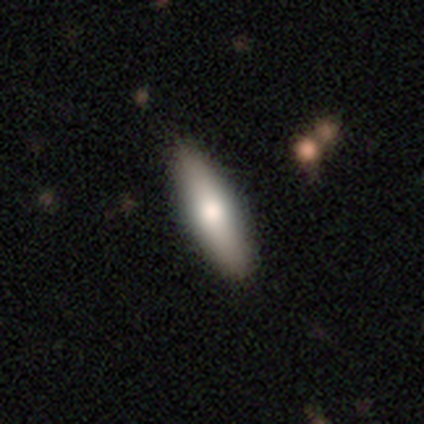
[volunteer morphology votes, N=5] This appears to be a smooth galaxy with no disk features (60%) that is in between round and cigar-shaped (67%). Merging: none (100%).